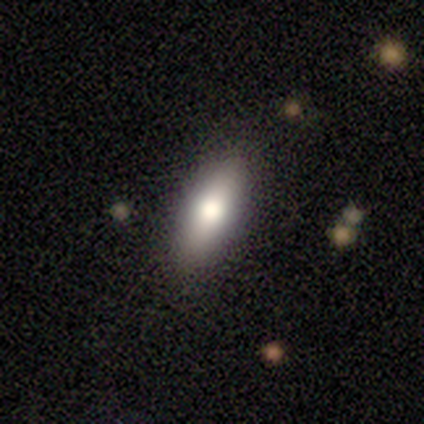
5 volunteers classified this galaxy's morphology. A smooth galaxy with no disk features (80%) that is in between round and cigar-shaped (50%, tied with cigar-shaped).

Vote fractions:
- Smooth or featured? smooth: 80% / featured or disk: 20% / star or artifact: 0%
- How rounded? in between: 50% (tied) / cigar-shaped: 50% (tied) / round: 0%
- Merging? none: 80% / minor disturbance: 20% / major disturbance: 0% / merger: 0%